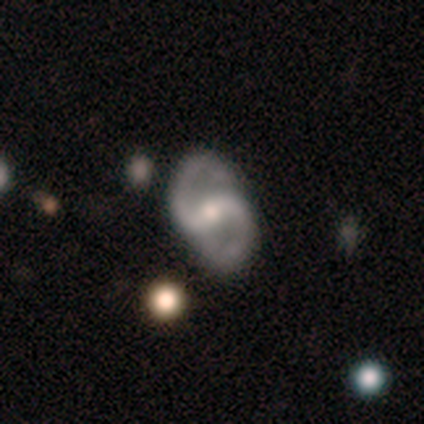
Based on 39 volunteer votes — smooth_or_featured: featured or disk (p=0.95) [alt: smooth p=0.05]
disk_edge_on: no (p=1.00)
bar: weak (p=0.49) [alt: strong p=0.30]
has_spiral_arms: yes (p=1.00)
spiral_winding: medium (p=0.54) [alt: loose p=0.35]
spiral_arm_count: 2 (p=0.92) [alt: 1 p=0.05]
bulge_size: moderate (p=0.54) [alt: small p=0.38]
merging: none (p=0.82) [alt: minor disturbance p=0.15]